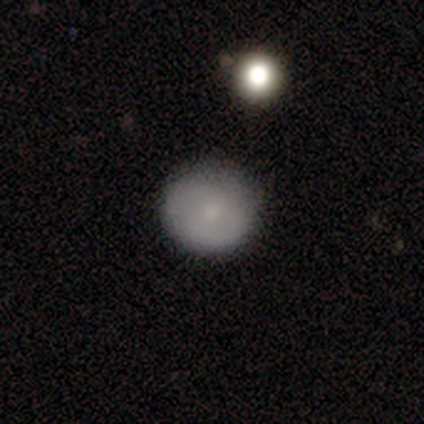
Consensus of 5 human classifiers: smooth-or-featured: smooth: 100% | featured or disk: 0% | star or artifact: 0%
  how-rounded: round: 100% | in between: 0% | cigar-shaped: 0%
  merging: none: 80% | minor disturbance: 20% | major disturbance: 0% | merger: 0%